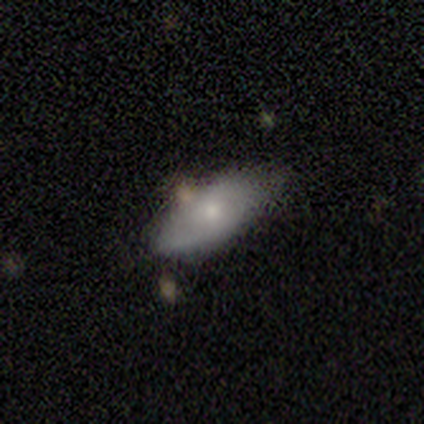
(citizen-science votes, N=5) Smooth or featured?
  - featured or disk: 80% *
  - smooth: 20%
  - star or artifact: 0%
Edge-on disk?
  - no: 75% *
  - yes: 25%
Bar?
  - no: 100% *
  - strong: 0%
  - weak: 0%
Spiral arms?
  - no: 67% *
  - yes: 33%
Bulge size?
  - small: 67% *
  - moderate: 33%
  - dominant: 0%
  - large: 0%
  - none: 0%
Merging?
  - none: 40% * (tied)
  - minor disturbance: 40% * (tied)
  - merger: 20%
  - major disturbance: 0%